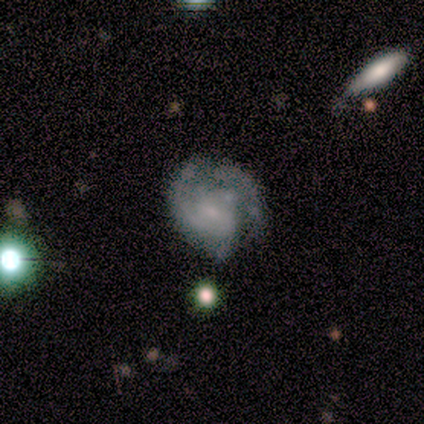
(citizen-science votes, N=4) smooth 50% (tied), featured or disk 50% (tied), star or artifact 0%. Down the decision tree: how rounded — in between (100%); merging — none (50%, tied with major disturbance).